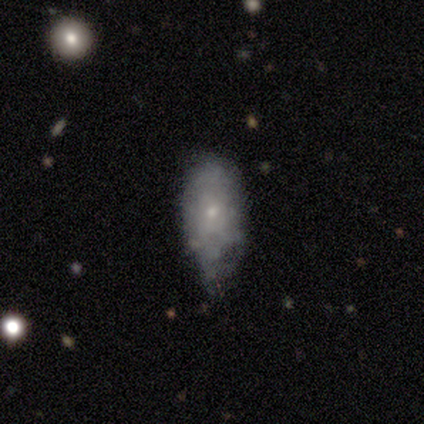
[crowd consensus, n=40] A smooth galaxy with no disk features (65%) that is in between round and cigar-shaped (77%). Merging: minor disturbance (50%).